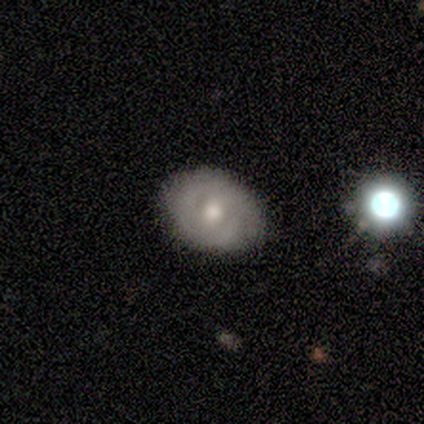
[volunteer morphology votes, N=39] Q: Smooth or featured?
A: featured or disk (54%); runner-up: smooth (38%)
Q: Edge-on disk?
A: no (95%); runner-up: yes (5%)
Q: Bar?
A: no (60%); runner-up: weak (25%)
Q: Spiral arms?
A: yes (60%); runner-up: no (40%)
Q: Spiral winding?
A: tight (50%); runner-up: medium (42%)
Q: Spiral arm count?
A: 2 (75%); runner-up: can't tell (17%)
Q: Bulge size?
A: moderate (65%); runner-up: small (25%)
Q: Merging?
A: none (75%); runner-up: minor disturbance (19%)